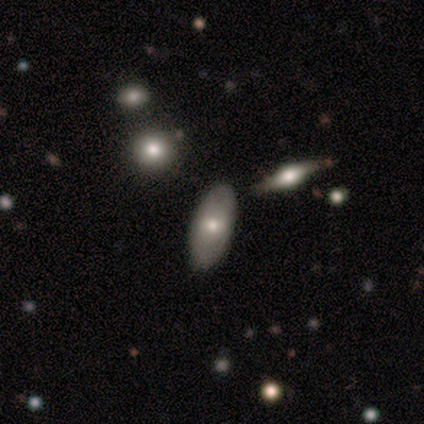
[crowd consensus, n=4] smooth_or_featured: smooth (p=0.50) [tied with: featured or disk p=0.50]
how_rounded: in between (p=1.00)
merging: none (p=0.50) [tied with: minor disturbance p=0.50]